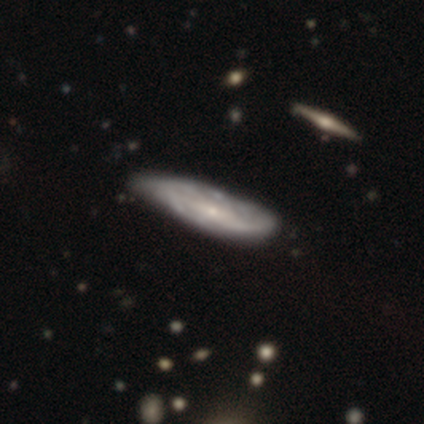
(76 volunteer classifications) This is likely a featured or disk galaxy (71%). It is likely not viewed edge-on (67%). Bar: possibly weak (50%). Spiral arm pattern: likely yes (75%). Spiral arm count: likely can't tell (78%). Spiral winding: possibly medium (52%). Central bulge: likely small (75%). Merging: marginally minor disturbance (28%).